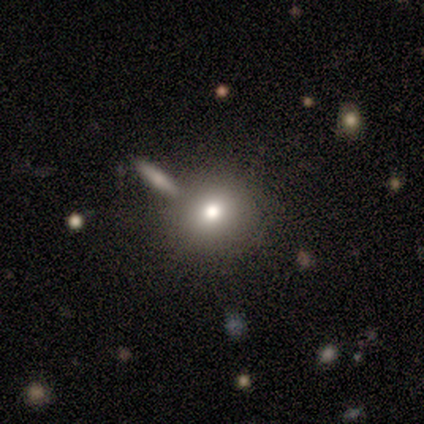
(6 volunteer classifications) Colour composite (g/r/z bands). It shows a smooth galaxy with no disk features (100%) that is round (100%). Merging: none (67%).